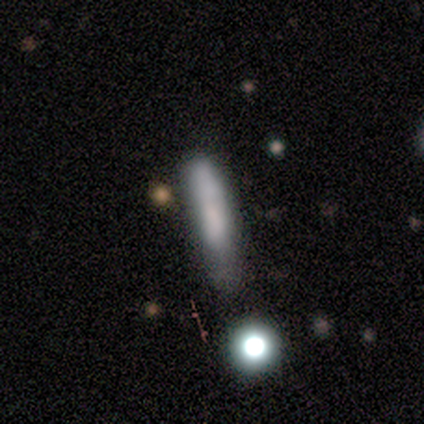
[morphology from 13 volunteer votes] smooth-or-featured: smooth: 85% | featured or disk: 15% | star or artifact: 0%
  how-rounded: cigar-shaped: 91% | in between: 9% | round: 0%
  merging: none: 38% | minor disturbance: 31% | major disturbance: 15% | merger: 15%